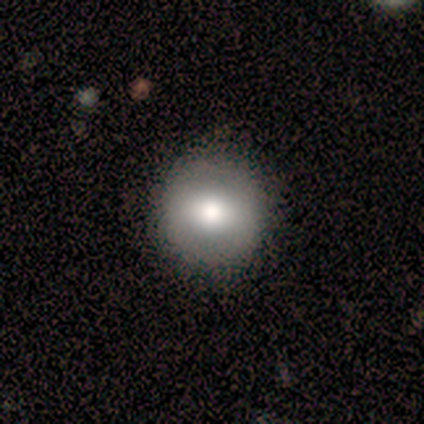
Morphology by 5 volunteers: Smooth or featured? featured or disk (80%)
Edge-on disk? no (100%)
Bar? no (50%)
Spiral arms? no (100%)
Bulge size? large (50%, tied with moderate)
Merging? none (100%)